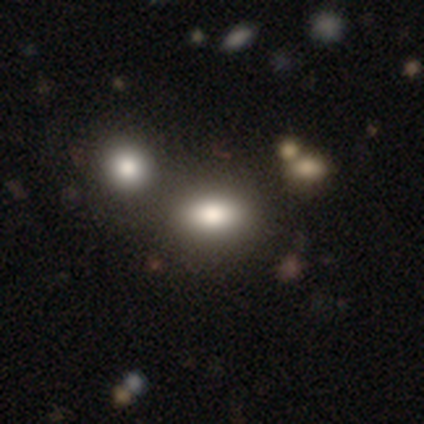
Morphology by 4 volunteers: A smooth galaxy with no disk features (50%, tied with star or artifact) that is round (50%, tied with in between). Merging: none (100%).